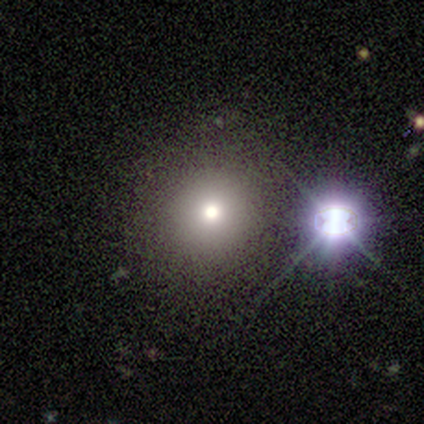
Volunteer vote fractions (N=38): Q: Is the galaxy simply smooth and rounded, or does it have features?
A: smooth — 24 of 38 (63%).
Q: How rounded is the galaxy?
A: round — 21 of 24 (88%).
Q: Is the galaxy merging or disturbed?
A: none — 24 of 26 (92%).